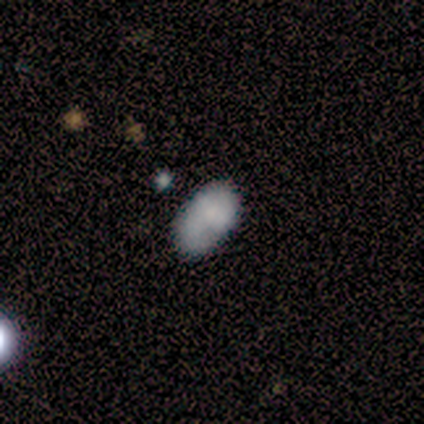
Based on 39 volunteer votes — smooth-or-featured: smooth: 87% | featured or disk: 8% | star or artifact: 5%
  how-rounded: in between: 94% | round: 6% | cigar-shaped: 0%
  merging: none: 78% | minor disturbance: 22% | major disturbance: 0% | merger: 0%